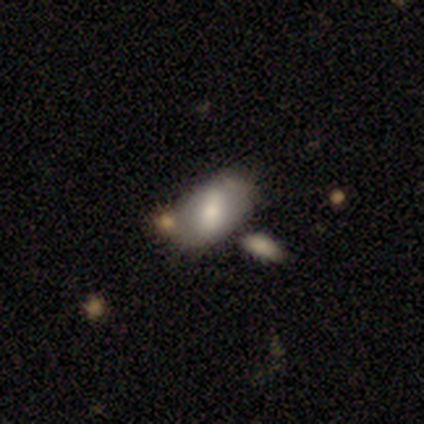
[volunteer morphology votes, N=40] This appears to be a smooth galaxy with no disk features (57%) that is in between round and cigar-shaped (87%). Merging: none (53%).